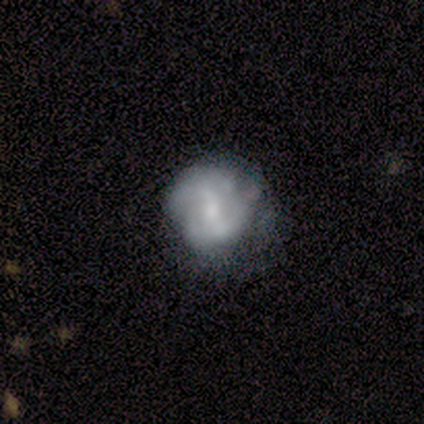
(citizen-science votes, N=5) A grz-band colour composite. It shows a featured or disk galaxy (80%) with a weak bar (50%, tied with no), 2 (50%, tied with 4) tight (100%) spiral arms (50%, tied with no) and a moderate central bulge (100%). Merging: none (60%).